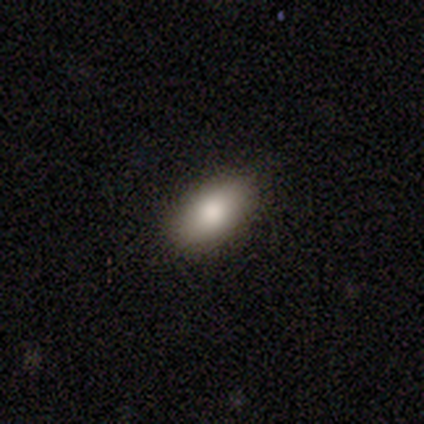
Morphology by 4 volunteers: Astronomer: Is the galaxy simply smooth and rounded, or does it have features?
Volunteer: smooth — 75%.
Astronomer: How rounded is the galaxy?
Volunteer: in between — 100%.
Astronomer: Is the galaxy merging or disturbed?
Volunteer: none — 100%.